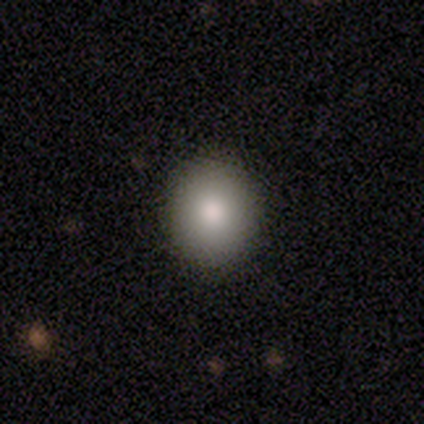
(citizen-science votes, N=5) This is clearly a smooth galaxy (100%). How rounded: likely round (60%). Merging: clearly none (80%).